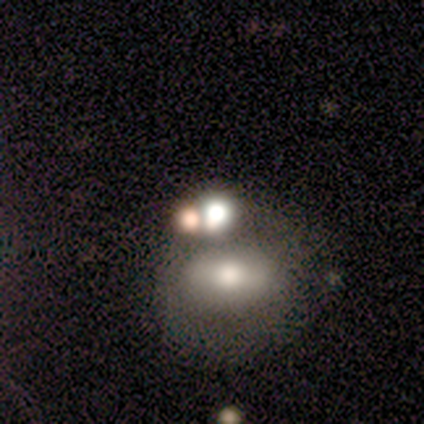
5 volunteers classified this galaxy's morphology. A smooth galaxy with no disk features (100%) that is round (40%, tied with in between). Merging: merger (40%).